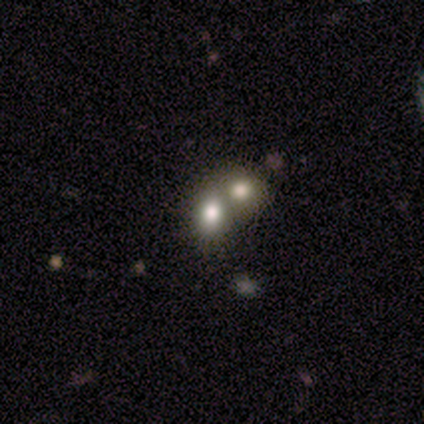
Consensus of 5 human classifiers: Smooth or featured: smooth — 60% (star or artifact — 40%)
How rounded: in between — 100%
Merging: none — 67% (merger — 33%)